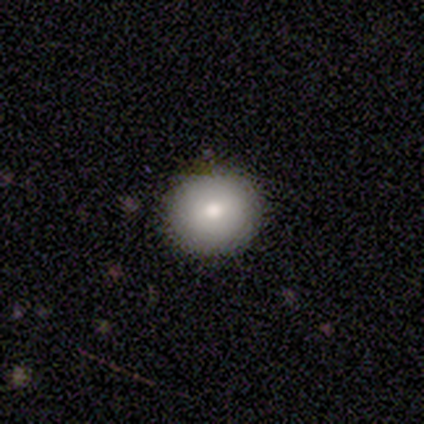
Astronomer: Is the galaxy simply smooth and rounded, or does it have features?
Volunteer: smooth — 60% (runner-up: featured or disk, 40%).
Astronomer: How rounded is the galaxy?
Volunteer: round — 100%.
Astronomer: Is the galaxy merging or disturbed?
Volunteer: none — 60%.